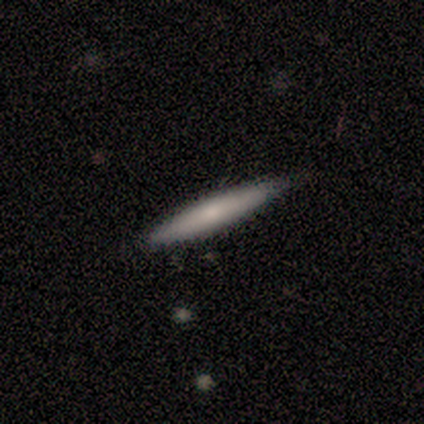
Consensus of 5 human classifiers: Smooth or featured? 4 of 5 (80%) said smooth. How rounded? 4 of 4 (100%) said cigar-shaped. Merging? 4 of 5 (80%) said none.